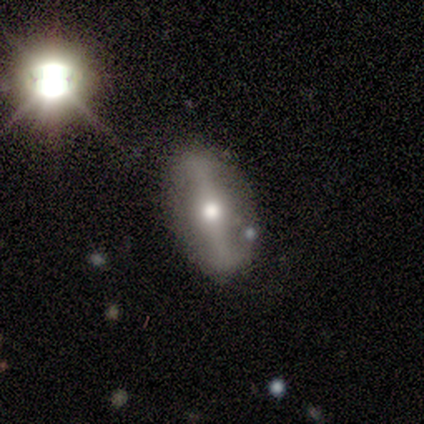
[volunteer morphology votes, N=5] smooth-or-featured: featured or disk: 60% | smooth: 40% | star or artifact: 0%
  disk-edge-on: no: 67% | yes: 33%
    bar: strong: 100% | weak: 0% | no: 0%
    has-spiral-arms: no: 100% | yes: 0%
    bulge-size: moderate: 100% | dominant: 0% | large: 0% | small: 0% | none: 0%
  merging: none: 100% | minor disturbance: 0% | major disturbance: 0% | merger: 0%